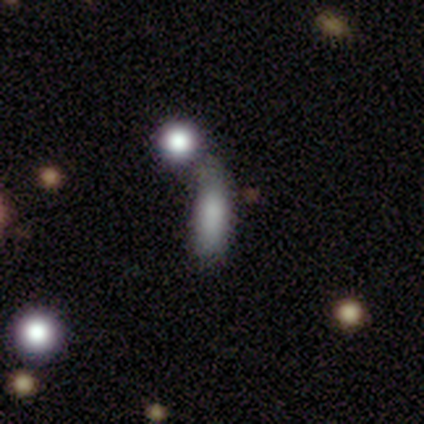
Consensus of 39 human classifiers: Morphology: type=smooth (82%); roundness=in between (53%); merging=none (41%).